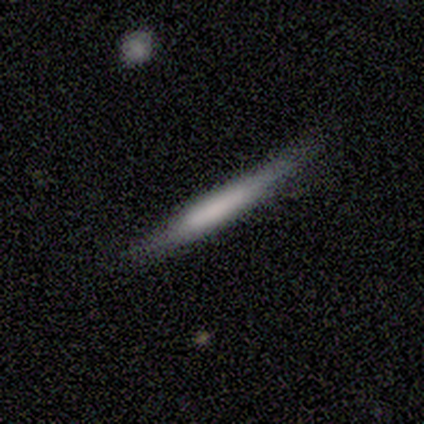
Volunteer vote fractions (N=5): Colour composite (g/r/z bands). It shows a smooth galaxy with no disk features (60%) that is cigar-shaped (67%). Merging: none (80%).